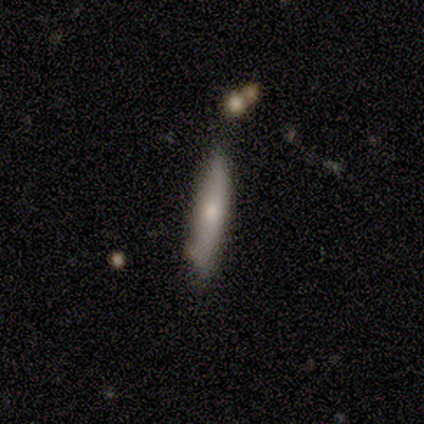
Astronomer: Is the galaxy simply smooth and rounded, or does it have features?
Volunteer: smooth — 100%.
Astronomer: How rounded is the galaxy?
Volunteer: cigar-shaped — 100%.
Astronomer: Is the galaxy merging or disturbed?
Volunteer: none — 80%.